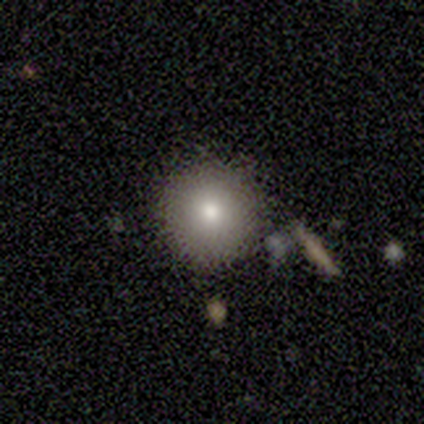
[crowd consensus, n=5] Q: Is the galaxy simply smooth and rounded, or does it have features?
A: smooth — 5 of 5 (100%).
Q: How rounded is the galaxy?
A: round — 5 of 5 (100%).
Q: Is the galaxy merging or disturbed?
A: none — 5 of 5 (100%).